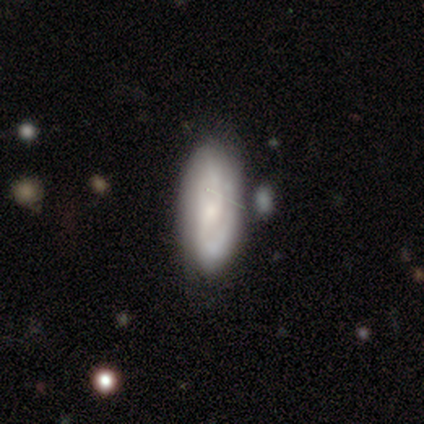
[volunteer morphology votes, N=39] smooth-or-featured: featured or disk: 69% | smooth: 31% | star or artifact: 0%
  disk-edge-on: no: 89% | yes: 11%
    bar: no: 50% | weak: 33% | strong: 17%
    has-spiral-arms: yes: 88% | no: 12%
      spiral-winding: medium: 43% | tight: 38% | loose: 19%
      spiral-arm-count: 2: 71% | can't tell: 24% | 1: 5% | 3: 0% | 4: 0% | more than 4: 0%
    bulge-size: small: 46% | none: 29% | moderate: 21% | large: 4% | dominant: 0%
  merging: none: 67% | minor disturbance: 13% | major disturbance: 10% | merger: 10%